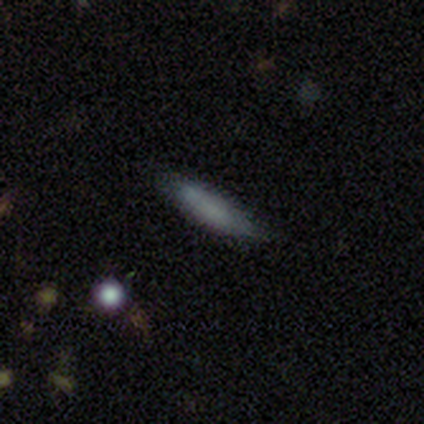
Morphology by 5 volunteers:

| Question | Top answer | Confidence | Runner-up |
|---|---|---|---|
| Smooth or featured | smooth | 100% | — |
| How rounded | cigar-shaped | 60% | in between (40%) |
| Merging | none | 100% | — |